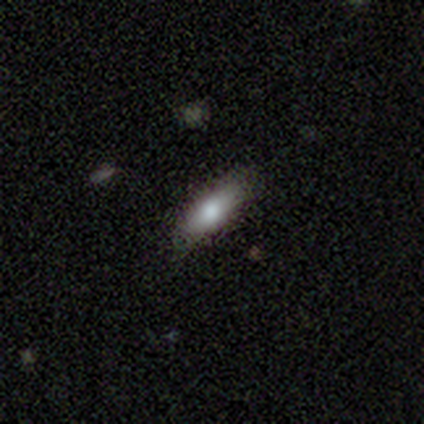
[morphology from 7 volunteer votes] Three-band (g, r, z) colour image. It shows a smooth galaxy with no disk features (100%) that is in between round and cigar-shaped (57%). Merging: none (100%).